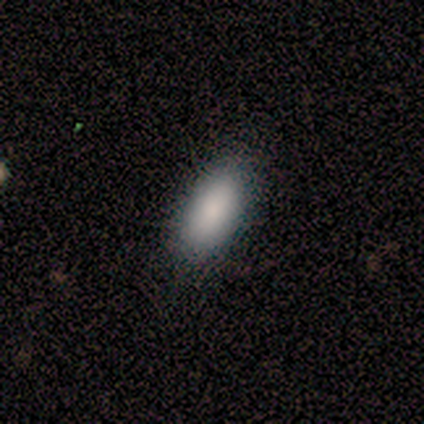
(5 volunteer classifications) Q: Smooth or featured?
A: smooth (100%)
Q: How rounded?
A: in between (80%); runner-up: cigar-shaped (20%)
Q: Merging?
A: none (100%)